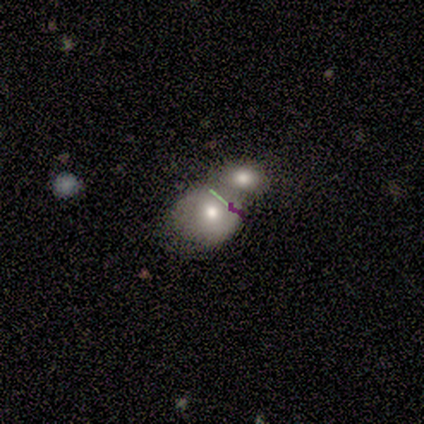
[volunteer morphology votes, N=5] Smooth or featured? 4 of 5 (80%) said featured or disk. Edge-on disk? 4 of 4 (100%) said no. Bar? 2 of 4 (50%) said no. Spiral arms? 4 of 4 (100%) said no. Bulge size? 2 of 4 (50%, tied with small) said moderate. Merging? 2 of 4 (50%) said merger.